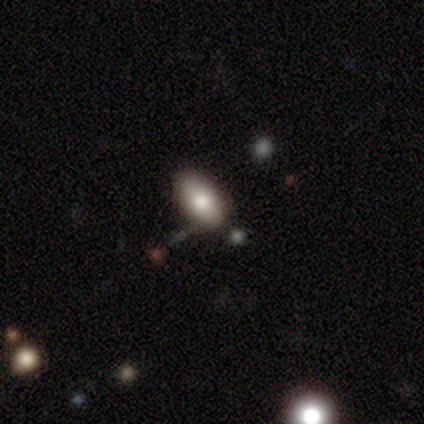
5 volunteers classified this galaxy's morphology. Overall: smooth (80%). How rounded: in between (75%). Merging: none (80%).